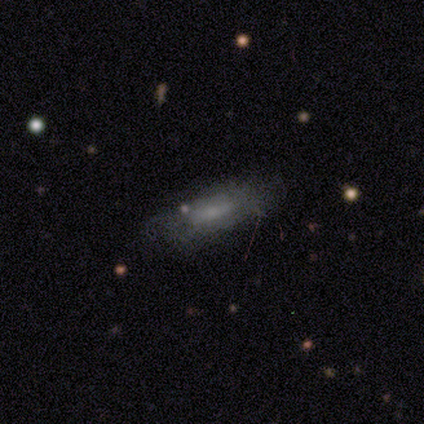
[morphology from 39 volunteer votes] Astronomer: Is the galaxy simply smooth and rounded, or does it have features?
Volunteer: smooth — 44% (runner-up: featured or disk, 41%).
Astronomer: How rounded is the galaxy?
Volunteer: in between — 59% (runner-up: cigar-shaped, 41%).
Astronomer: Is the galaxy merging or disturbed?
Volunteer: none — 64%.